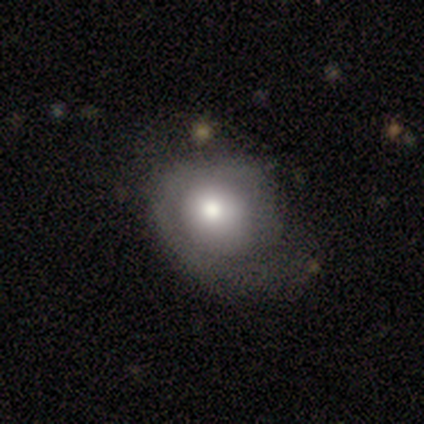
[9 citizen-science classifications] Volunteers were most divided on "merging": minor disturbance: 44%, none: 33%, major disturbance: 22%, merger: 0%. More confident: edge-on disk — no (100%); bar — no (80%); spiral arms — no (60%); bulge size — moderate (60%); smooth or featured — featured or disk (56%).